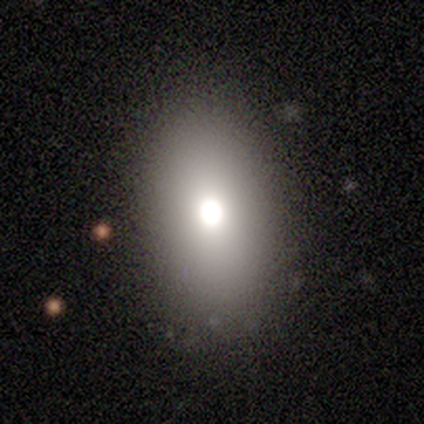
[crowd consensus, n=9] Smooth or featured: smooth — 67% (featured or disk — 33%)
How rounded: in between — 100%
Merging: none — 78% (minor disturbance — 22%)